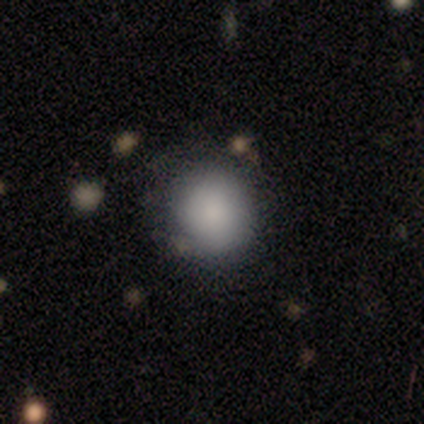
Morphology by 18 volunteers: smooth-or-featured: smooth: 78% | featured or disk: 11% | star or artifact: 11%
  how-rounded: round: 93% | in between: 7% | cigar-shaped: 0%
  merging: none: 62% | minor disturbance: 31% | merger: 6% | major disturbance: 0%